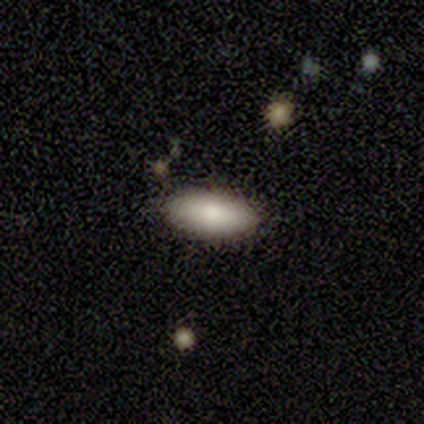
Smooth or featured? smooth (80%)
How rounded? in between (100%)
Merging? none (89%)